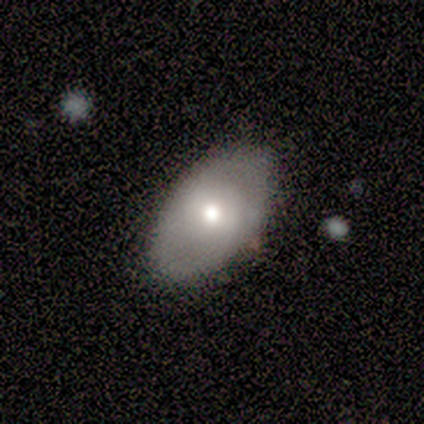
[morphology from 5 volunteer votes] Smooth or featured: smooth — 60% (featured or disk — 20%)
How rounded: in between — 100%
Merging: none — 75% (major disturbance — 25%)